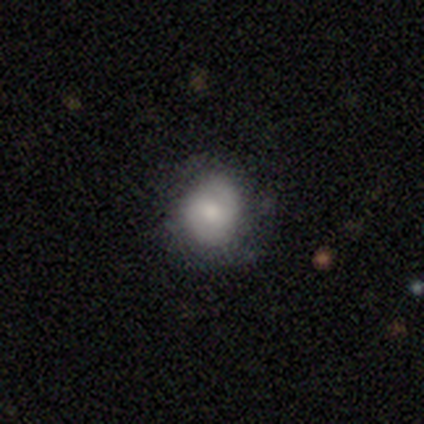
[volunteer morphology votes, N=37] This appears to be a smooth galaxy with no disk features (78%) that is round (79%). Merging: none (57%).